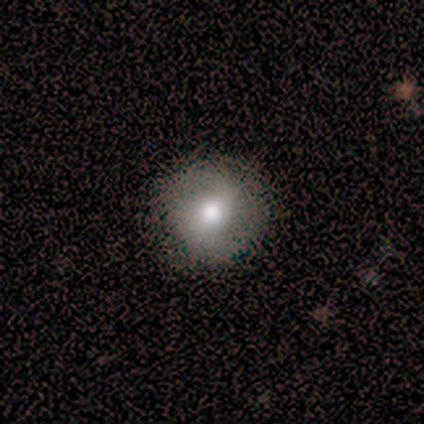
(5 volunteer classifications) A smooth galaxy with no disk features (60%) that is round (100%). Merging: none (100%).